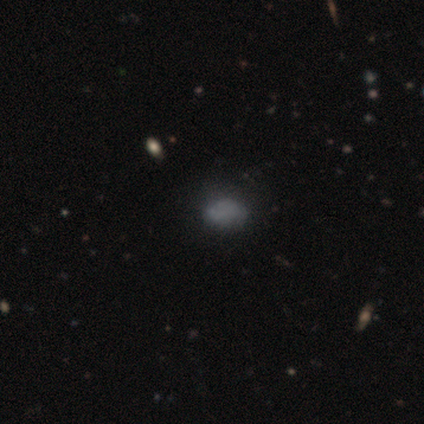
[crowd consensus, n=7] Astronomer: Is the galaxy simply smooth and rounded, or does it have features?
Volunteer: smooth — 71%.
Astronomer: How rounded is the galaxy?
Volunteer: in between — 60% (runner-up: round, 40%).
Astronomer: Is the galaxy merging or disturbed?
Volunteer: none — 60% (runner-up: minor disturbance, 40%).